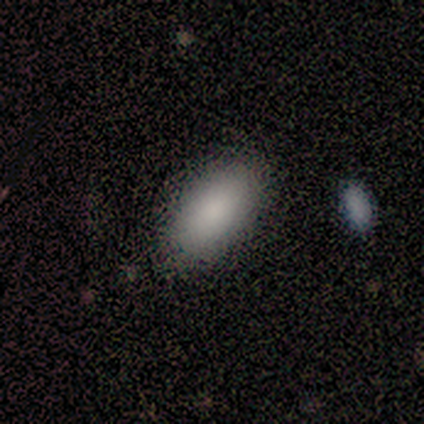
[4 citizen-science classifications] smooth_or_featured: smooth (p=1.00)
how_rounded: in between (p=1.00)
merging: none (p=1.00)